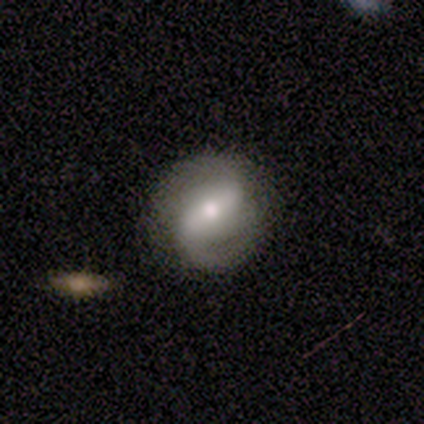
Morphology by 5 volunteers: smooth-or-featured: featured or disk: 100% | smooth: 0% | star or artifact: 0%
  disk-edge-on: no: 100% | yes: 0%
    bar: weak: 60% | strong: 20% | no: 20%
    has-spiral-arms: yes: 80% | no: 20%
      spiral-winding: medium: 50% | tight: 25% | loose: 25%
      spiral-arm-count: 2: 75% | can't tell: 25% | 1: 0% | 3: 0% | 4: 0% | more than 4: 0%
    bulge-size: moderate: 40% (tied) | small: 40% (tied) | none: 20% | dominant: 0% | large: 0%
  merging: none: 60% | minor disturbance: 40% | major disturbance: 0% | merger: 0%